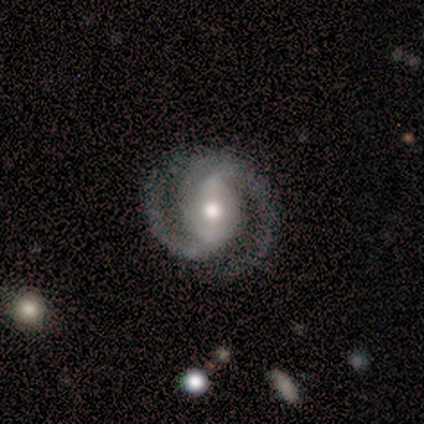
smooth-or-featured: featured or disk: 98% | smooth: 2% | star or artifact: 0%
  disk-edge-on: no: 98% | yes: 2%
    bar: weak: 39% | strong: 35% | no: 27%
    has-spiral-arms: yes: 98% | no: 2%
      spiral-winding: medium: 65% | tight: 29% | loose: 6%
      spiral-arm-count: 2: 92% | 3: 4% | more than 4: 2% | can't tell: 2% | 1: 0% | 4: 0%
    bulge-size: moderate: 73% | large: 16% | small: 10% | dominant: 0% | none: 0%
  merging: none: 86% | minor disturbance: 14% | major disturbance: 0% | merger: 0%